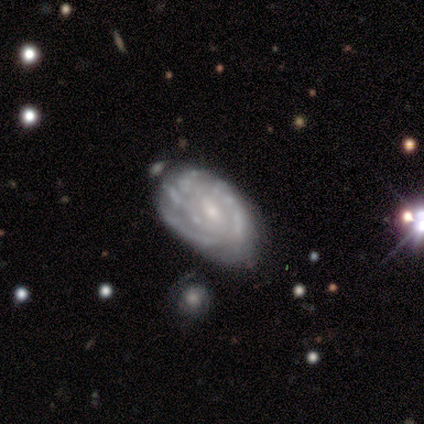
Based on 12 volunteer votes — smooth-or-featured: featured or disk: 75% | smooth: 25% | star or artifact: 0%
  disk-edge-on: no: 89% | yes: 11%
    bar: weak: 38% (tied) | no: 38% (tied) | strong: 25%
    has-spiral-arms: yes: 62% | no: 38%
      spiral-winding: tight: 80% | medium: 20% | loose: 0%
      spiral-arm-count: can't tell: 40% | 2: 20% | 3: 20% | 4: 20% | 1: 0% | more than 4: 0%
    bulge-size: small: 75% | moderate: 25% | dominant: 0% | large: 0% | none: 0%
  merging: none: 42% (tied) | minor disturbance: 42% (tied) | major disturbance: 17% | merger: 0%